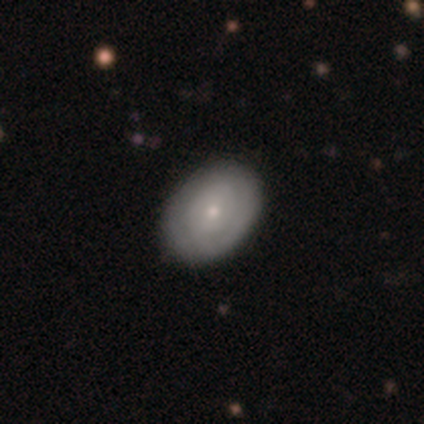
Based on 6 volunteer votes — This is possibly a smooth galaxy (50%). How rounded: likely in between (67%). Merging: clearly none (100%).